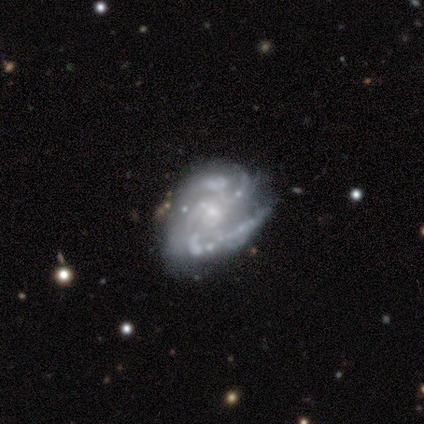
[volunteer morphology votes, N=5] This is clearly a featured or disk galaxy (80%). It is clearly not viewed edge-on (100%). Bar: likely no (75%). Spiral arm pattern: clearly yes (100%). Spiral arm count: possibly 3 (50%). Spiral winding: possibly tight (50%). Central bulge: likely small (75%). Merging: possibly none (50%).